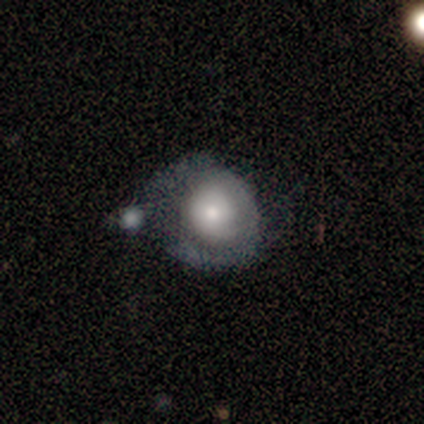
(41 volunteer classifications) smooth-or-featured: smooth: 51% | featured or disk: 49% | star or artifact: 0%
  how-rounded: round: 62% | in between: 33% | cigar-shaped: 5%
  merging: major disturbance: 37% | merger: 24% | minor disturbance: 22% | none: 17%